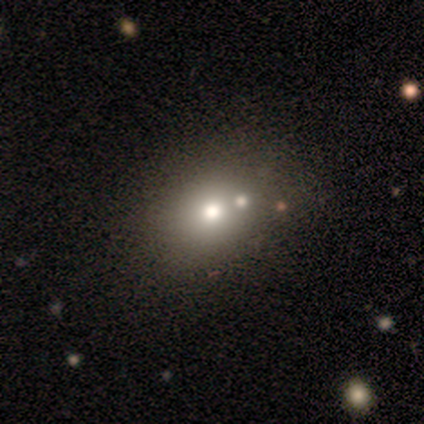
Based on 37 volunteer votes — Overall: smooth (84%). How rounded: round (61%; in between 39%). Merging: none (57%).